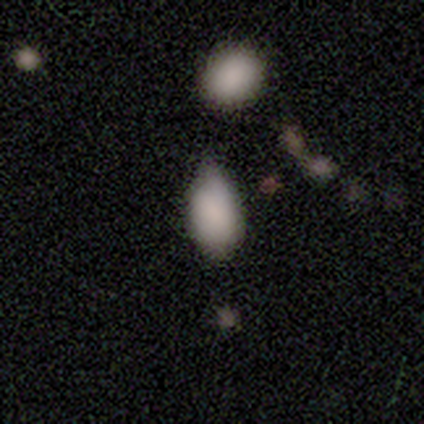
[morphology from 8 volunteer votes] This appears to be a smooth galaxy with no disk features (88%) that is in between round and cigar-shaped (100%). Merging: minor disturbance (62%).